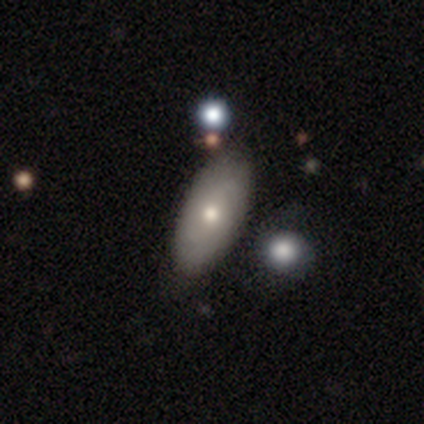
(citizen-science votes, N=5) Smooth or featured?
  - smooth: 80% *
  - featured or disk: 20%
  - star or artifact: 0%
How rounded?
  - in between: 50% *
  - round: 25%
  - cigar-shaped: 25%
Merging?
  - none: 100% *
  - minor disturbance: 0%
  - major disturbance: 0%
  - merger: 0%